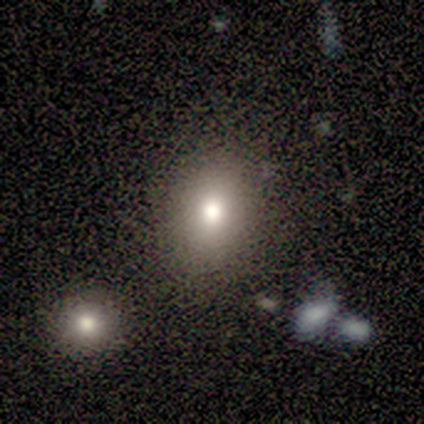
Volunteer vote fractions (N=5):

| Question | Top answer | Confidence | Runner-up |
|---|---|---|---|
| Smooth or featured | smooth | 80% | featured or disk (20%) |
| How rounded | in between | 75% | round (25%) |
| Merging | none | 100% | — |